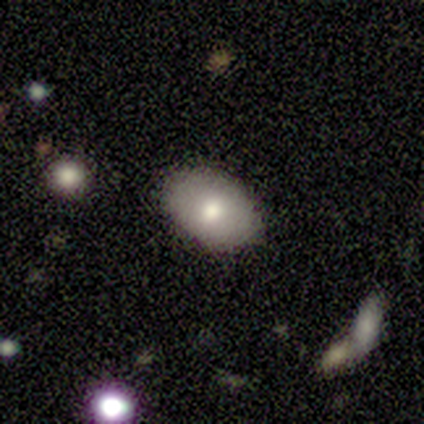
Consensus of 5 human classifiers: This appears to be a smooth galaxy with no disk features (60%) that is in between round and cigar-shaped (100%). Merging: none (75%).